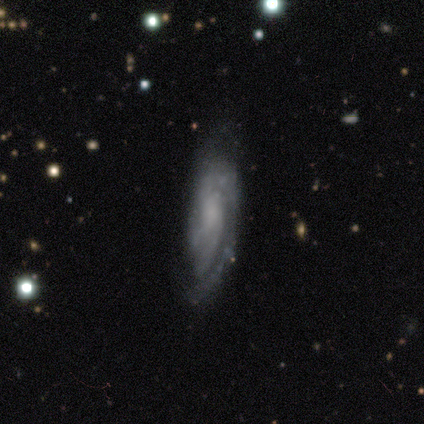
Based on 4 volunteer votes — This is clearly a featured or disk galaxy (100%). It is likely not viewed edge-on (75%). Bar: likely no (67%). Spiral arm pattern: clearly yes (100%). Spiral arm count: likely 2 (67%). Spiral winding: marginally tight (33%, tied with medium and loose). Central bulge: likely moderate (67%). Merging: likely minor disturbance (75%).